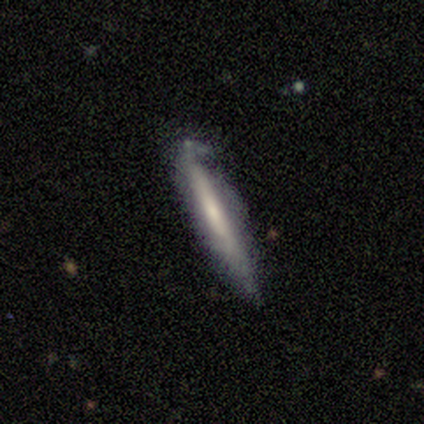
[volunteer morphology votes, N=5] smooth-or-featured: featured or disk: 60% | smooth: 40% | star or artifact: 0%
  disk-edge-on: yes: 100% | no: 0%
    edge-on-bulge: none: 67% | rounded: 33% | boxy: 0%
  merging: none: 60% | minor disturbance: 40% | major disturbance: 0% | merger: 0%